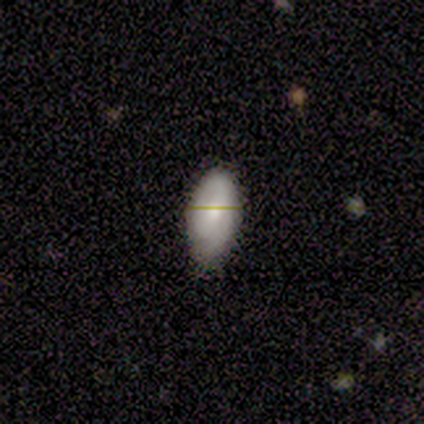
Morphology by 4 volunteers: Q: Smooth or featured?
A: smooth (50%); tied with: featured or disk (50%)
Q: How rounded?
A: in between (100%)
Q: Merging?
A: minor disturbance (50%); runner-up: none (25%)